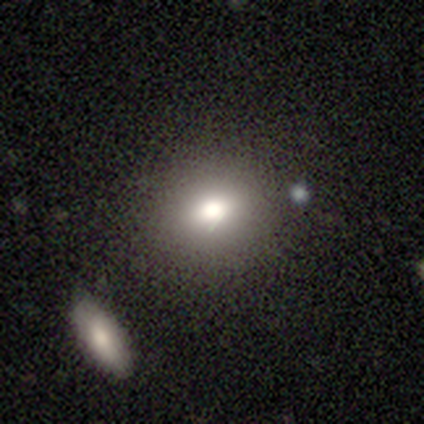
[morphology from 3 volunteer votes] smooth-or-featured: smooth: 100% | featured or disk: 0% | star or artifact: 0%
  how-rounded: round: 67% | in between: 33% | cigar-shaped: 0%
  merging: minor disturbance: 67% | none: 33% | major disturbance: 0% | merger: 0%